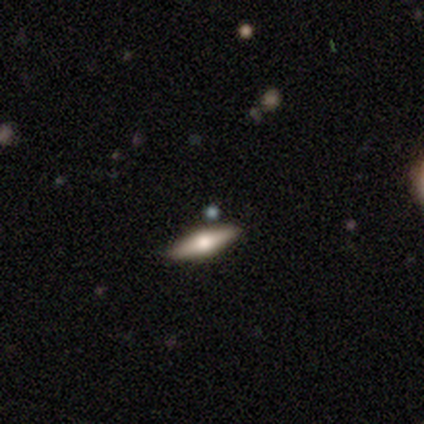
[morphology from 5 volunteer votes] Smooth or featured?
  - smooth: 60% *
  - featured or disk: 40%
  - star or artifact: 0%
How rounded?
  - cigar-shaped: 100% *
  - round: 0%
  - in between: 0%
Merging?
  - none: 100% *
  - minor disturbance: 0%
  - major disturbance: 0%
  - merger: 0%